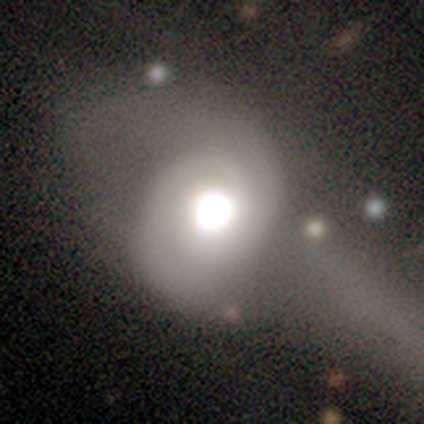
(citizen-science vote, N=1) A featured or disk galaxy (100%) with no bar (100%), 2 (100%) tight (100%) spiral arms (100%) and a large central bulge (100%). Merging: none (100%).